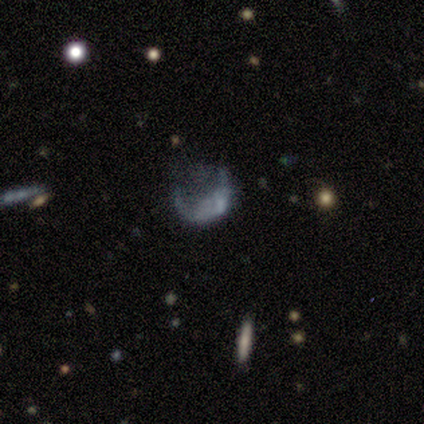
Volunteers were most divided on "smooth or featured": featured or disk: 60%, smooth: 40%, star or artifact: 0%. More confident: edge-on disk — no (100%); bar — no (100%); spiral arms — no (100%); bulge size — none (100%); merging — major disturbance (60%).